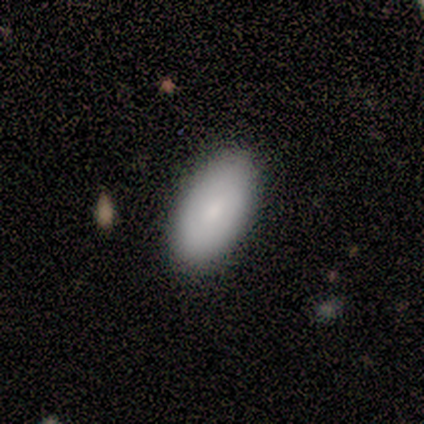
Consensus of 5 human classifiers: This is clearly a smooth galaxy (80%). How rounded: likely in between (75%). Merging: clearly none (100%).